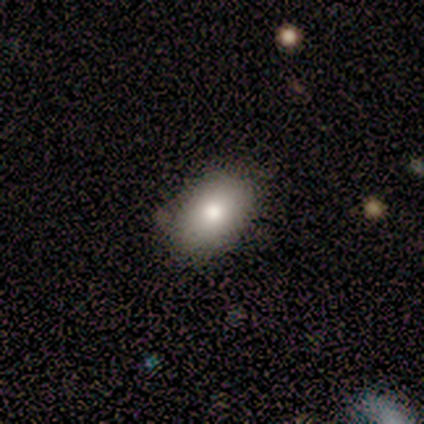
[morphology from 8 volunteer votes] smooth 88%, star or artifact 12%, featured or disk 0%. Down the decision tree: how rounded — in between (100%); merging — none (100%).